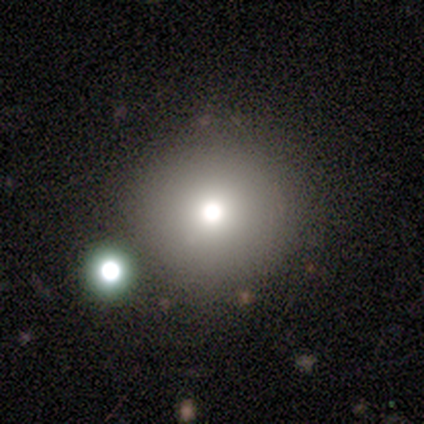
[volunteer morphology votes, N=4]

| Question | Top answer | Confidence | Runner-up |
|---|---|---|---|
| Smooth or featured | smooth | 75% | star or artifact (25%) |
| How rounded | round | 100% | — |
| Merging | none | 67% | minor disturbance (33%) |